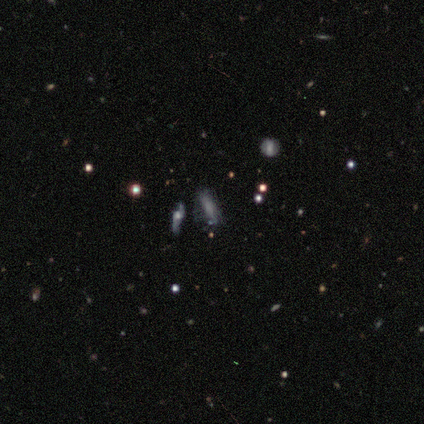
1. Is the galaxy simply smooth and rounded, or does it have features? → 80% smooth, 20% featured or disk, 0% star or artifact.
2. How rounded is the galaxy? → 75% in between, 25% cigar-shaped, 0% round.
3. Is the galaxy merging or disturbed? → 60% major disturbance, 20% none, 20% minor disturbance, 0% merger.